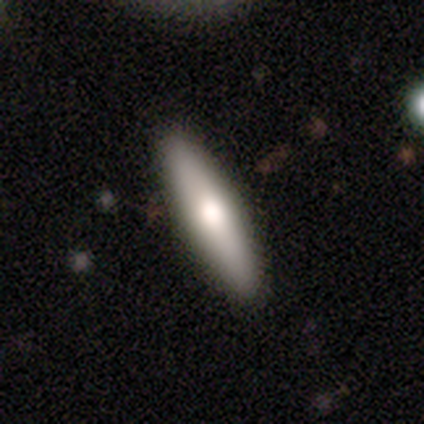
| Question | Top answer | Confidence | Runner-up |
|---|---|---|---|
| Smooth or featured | smooth | 66% | featured or disk (32%) |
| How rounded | cigar-shaped | 88% | in between (12%) |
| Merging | none | 89% | minor disturbance (8%) |